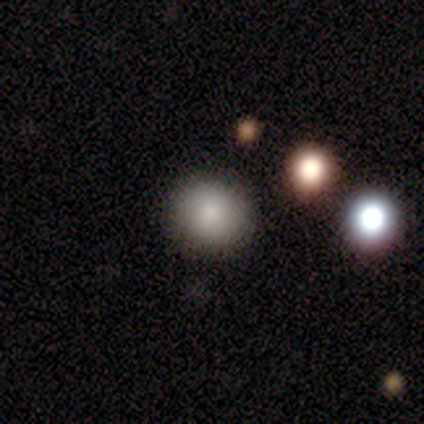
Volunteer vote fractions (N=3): smooth 67%, featured or disk 33%, star or artifact 0%. Down the decision tree: how rounded — round (100%); merging — none (100%).